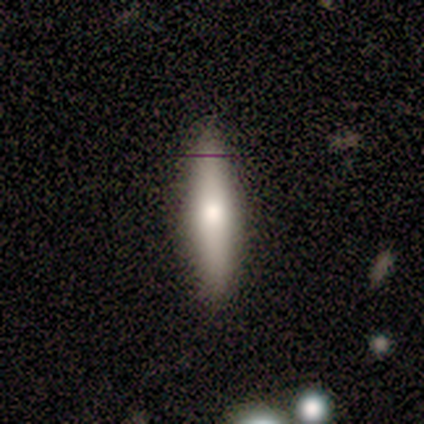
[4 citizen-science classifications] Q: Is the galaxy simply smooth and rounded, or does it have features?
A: smooth — 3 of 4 (75%).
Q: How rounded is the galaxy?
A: cigar-shaped — 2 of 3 (67%).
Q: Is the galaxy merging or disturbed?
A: none — 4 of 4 (100%).